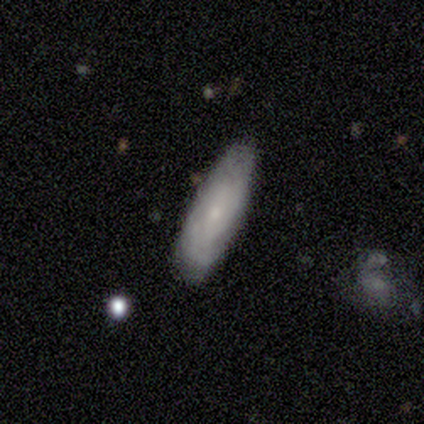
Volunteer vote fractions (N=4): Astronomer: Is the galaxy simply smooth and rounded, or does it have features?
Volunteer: smooth — 50%, tied with featured or disk at 50%.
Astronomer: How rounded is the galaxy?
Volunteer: in between — 50%, tied with cigar-shaped at 50%.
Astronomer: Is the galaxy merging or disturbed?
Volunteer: none — 75%.